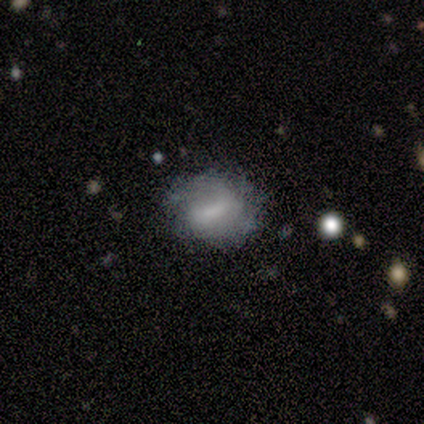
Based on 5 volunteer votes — Smooth or featured? smooth (40%, tied with featured or disk)
How rounded? round (50%, tied with in between)
Merging? none (50%)